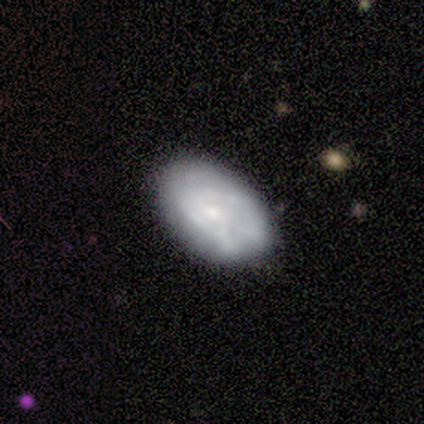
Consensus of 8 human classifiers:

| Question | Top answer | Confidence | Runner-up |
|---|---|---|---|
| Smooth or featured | featured or disk | 88% | smooth (12%) |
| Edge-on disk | no | 100% | — |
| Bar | no | 71% | weak (29%) |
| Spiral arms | yes | 57% | no (43%) |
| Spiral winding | medium | 75% | tight (25%) |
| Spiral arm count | can't tell | 75% | 2 (25%) |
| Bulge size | small | 86% | none (14%) |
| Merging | none | 75% | minor disturbance (12%) |